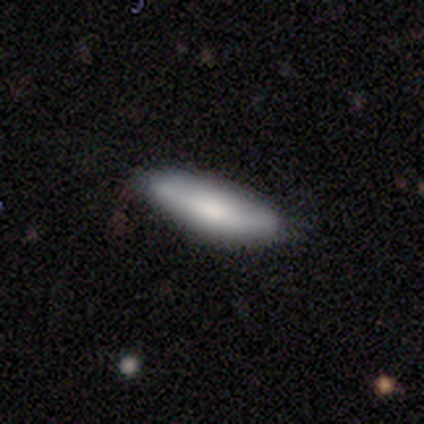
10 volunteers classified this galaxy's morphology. A smooth galaxy with no disk features (80%) that is in between round and cigar-shaped (88%).

Vote fractions:
- Smooth or featured? smooth: 80% / featured or disk: 20% / star or artifact: 0%
- How rounded? in between: 88% / cigar-shaped: 12% / round: 0%
- Merging? none: 60% / minor disturbance: 30% / major disturbance: 10% / merger: 0%